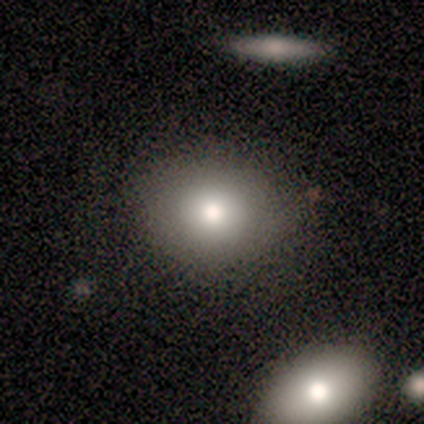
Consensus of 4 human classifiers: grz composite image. It shows a smooth galaxy with no disk features (75%) that is round (100%). Merging: none (100%).